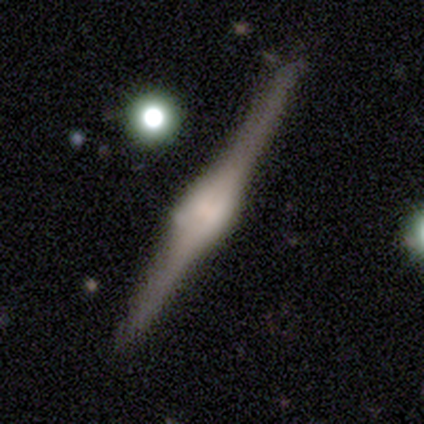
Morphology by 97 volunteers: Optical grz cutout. It shows a featured or disk galaxy (86%) viewed edge-on (100%) with a rounded central bulge (69%). Merging: none (80%).